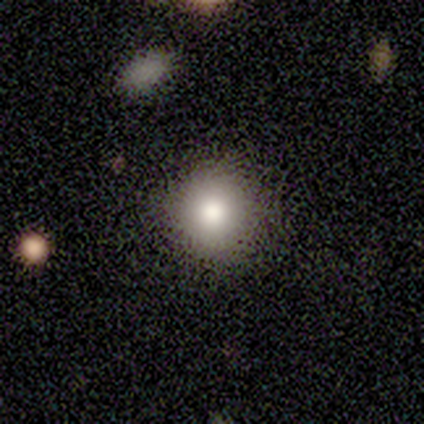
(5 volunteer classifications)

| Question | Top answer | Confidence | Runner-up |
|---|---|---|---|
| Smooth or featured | smooth | 100% | — |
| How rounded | round | 80% | in between (20%) |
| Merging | none | 100% | — |